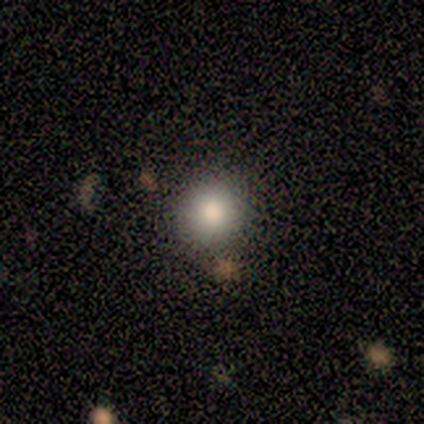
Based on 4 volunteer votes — Volunteers were most divided on "smooth or featured": smooth: 75%, star or artifact: 25%, featured or disk: 0%. More confident: how rounded — round (100%); merging — none (100%).